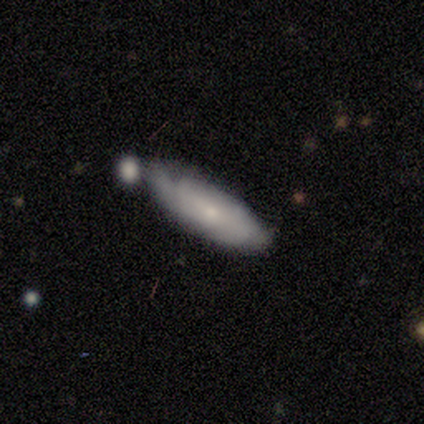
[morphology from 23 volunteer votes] smooth-or-featured: featured or disk: 43% | smooth: 39% | star or artifact: 17%
  disk-edge-on: no: 90% | yes: 10%
    bar: no: 67% | weak: 33% | strong: 0%
    has-spiral-arms: yes: 78% | no: 22%
      spiral-winding: tight: 57% | medium: 43% | loose: 0%
      spiral-arm-count: 2: 29% (tied) | 3: 29% (tied) | can't tell: 29% (tied) | 1: 14% | 4: 0% | more than 4: 0%
    bulge-size: small: 78% | large: 11% | moderate: 11% | dominant: 0% | none: 0%
  merging: none: 42% | minor disturbance: 26% | merger: 21% | major disturbance: 11%